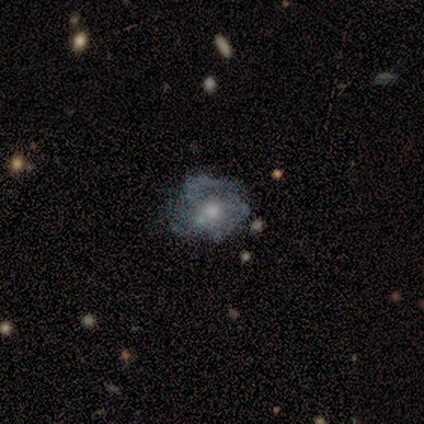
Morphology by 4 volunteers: Smooth or featured? 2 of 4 (50%) said featured or disk. Edge-on disk? 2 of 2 (100%) said no. Bar? 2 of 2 (100%) said no. Spiral arms? 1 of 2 (50%, tied with no) said yes. Spiral winding? 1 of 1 (100%) said medium. Spiral arm count? 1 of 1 (100%) said can't tell. Bulge size? 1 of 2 (50%, tied with moderate) said large. Merging? 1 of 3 (33%, tied with minor disturbance and major disturbance) said none.